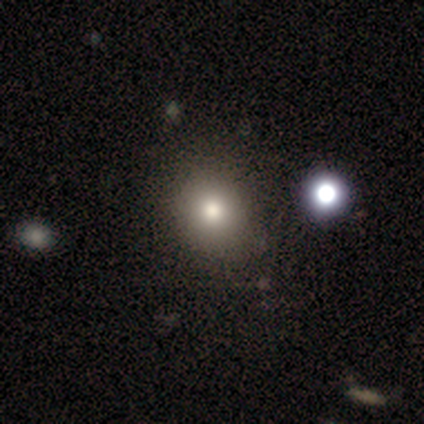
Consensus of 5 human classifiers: smooth_or_featured: star or artifact (p=0.60) [alt: smooth p=0.40]